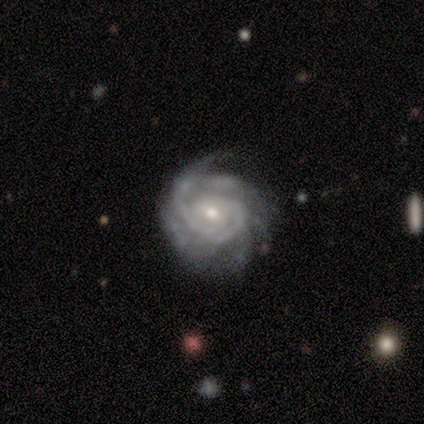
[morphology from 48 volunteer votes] Smooth or featured? featured or disk (81%)
Edge-on disk? no (97%)
Bar? no (66%)
Spiral arms? yes (95%)
Spiral winding? tight (72%)
Spiral arm count? can't tell (33%)
Bulge size? moderate (50%)
Merging? none (61%)